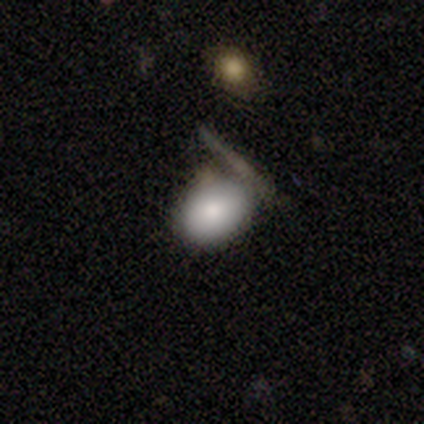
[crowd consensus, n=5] This appears to be a smooth galaxy with no disk features (80%) that is in between round and cigar-shaped (75%). Merging: none (80%).